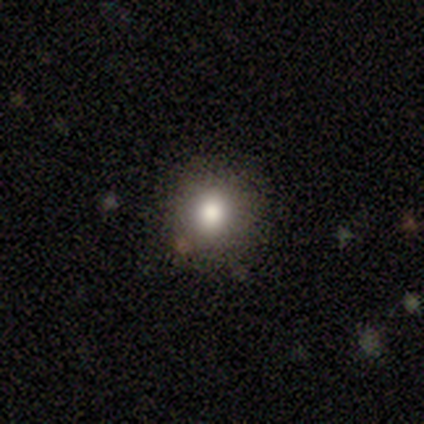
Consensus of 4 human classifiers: This appears to be a smooth galaxy with no disk features (75%) that is round (100%). Merging: none (100%).